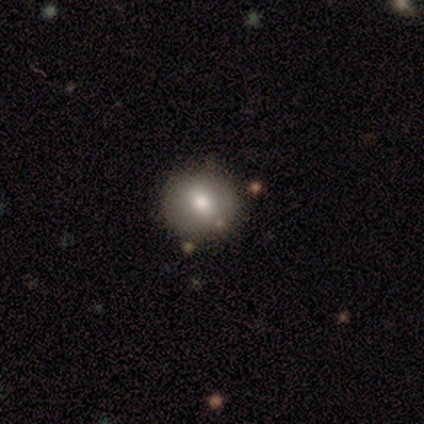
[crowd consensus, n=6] smooth 100%, featured or disk 0%, star or artifact 0%. Down the decision tree: how rounded — round (83%); merging — none (100%).